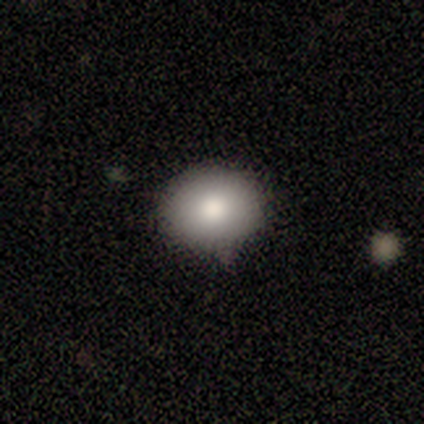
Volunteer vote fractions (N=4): smooth_or_featured: smooth (p=1.00)
how_rounded: round (p=0.50) [tied with: in between p=0.50]
merging: none (p=1.00)